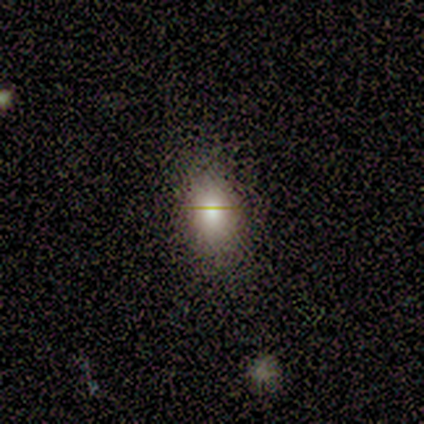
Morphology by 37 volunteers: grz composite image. It shows a smooth galaxy with no disk features (92%) that is in between round and cigar-shaped (85%). Merging: none (61%).